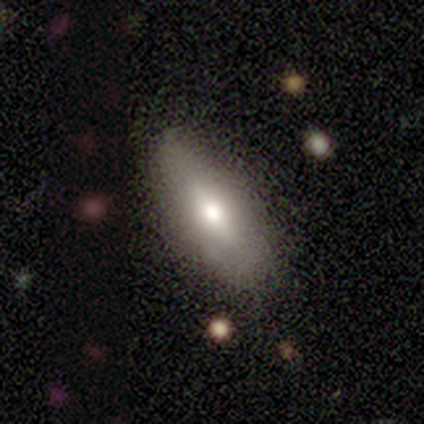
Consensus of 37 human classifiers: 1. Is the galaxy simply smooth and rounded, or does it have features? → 62% smooth, 32% featured or disk, 5% star or artifact.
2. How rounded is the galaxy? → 83% in between, 13% cigar-shaped, 4% round.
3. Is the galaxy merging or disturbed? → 80% none, 17% minor disturbance, 3% major disturbance, 0% merger.